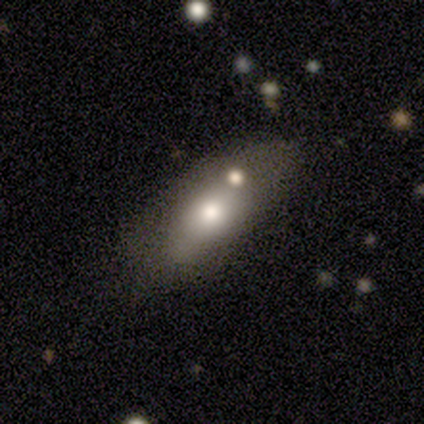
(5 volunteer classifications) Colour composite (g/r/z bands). It shows a smooth galaxy with no disk features (40%, tied with featured or disk) that is in between round and cigar-shaped (100%). Merging: none (75%).